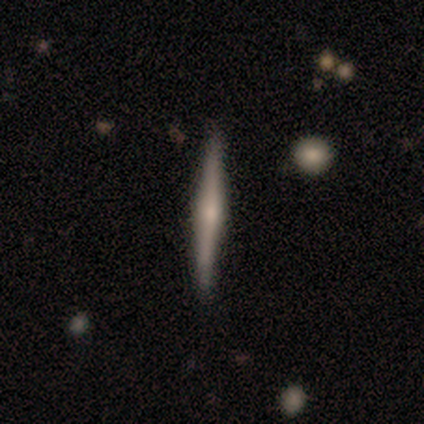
featured or disk 86%, smooth 14%, star or artifact 0%. Down the decision tree: edge-on disk — yes (100%); edge-on bulge — rounded (83%); merging — none (86%).